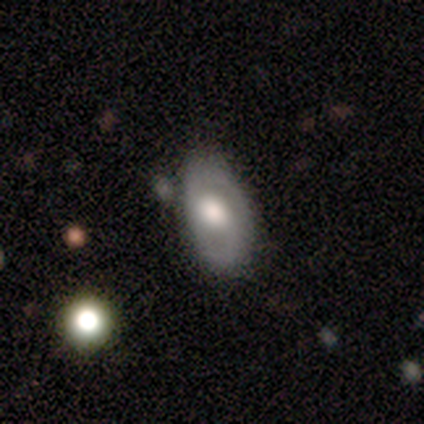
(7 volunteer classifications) Smooth or featured?
  - featured or disk: 100% *
  - smooth: 0%
  - star or artifact: 0%
Edge-on disk?
  - no: 100% *
  - yes: 0%
Bar?
  - no: 57% *
  - strong: 43%
  - weak: 0%
Spiral arms?
  - yes: 57% *
  - no: 43%
Spiral winding?
  - tight: 50% * (tied)
  - loose: 50% * (tied)
  - medium: 0%
Spiral arm count?
  - 2: 100% *
  - 1: 0%
  - 3: 0%
  - 4: 0%
  - more than 4: 0%
  - can't tell: 0%
Bulge size?
  - moderate: 71% *
  - large: 29%
  - dominant: 0%
  - small: 0%
  - none: 0%
Merging?
  - minor disturbance: 71% *
  - none: 29%
  - major disturbance: 0%
  - merger: 0%